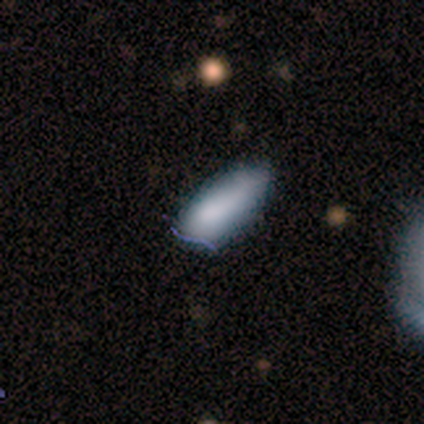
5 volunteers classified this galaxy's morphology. smooth_or_featured: smooth (p=0.40) [tied with: star or artifact p=0.40]
how_rounded: in between (p=1.00)
merging: minor disturbance (p=0.67) [alt: none p=0.33]